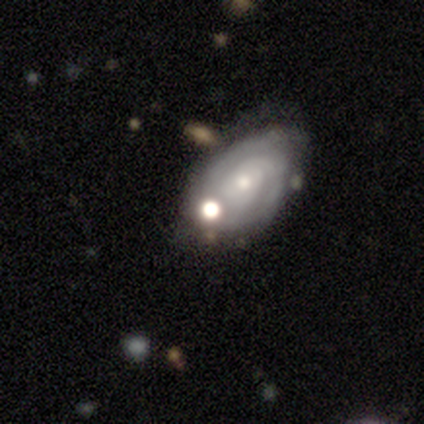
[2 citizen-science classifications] This is clearly a featured or disk galaxy (100%). It is clearly not viewed edge-on (100%). Bar: clearly no (100%). Spiral arm pattern: possibly yes (50%, tied with no). Spiral arm count: clearly can't tell (100%). Spiral winding: clearly tight (100%). Central bulge: possibly dominant (50%, tied with small). Merging: clearly none (100%).